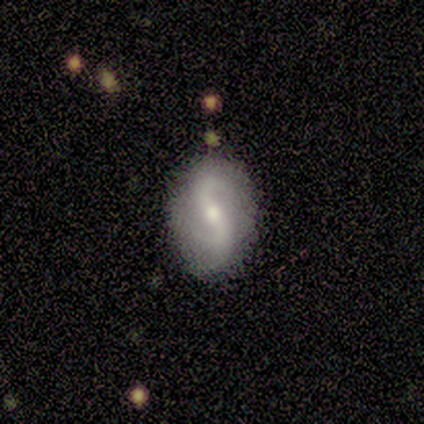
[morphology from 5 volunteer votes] A featured or disk galaxy (60%) with a strong bar (33%, tied with weak and no), 1 (33%, tied with 2 and can't tell) loose (67%) spiral arms (100%) and a small central bulge (67%). Merging: none (50%, tied with minor disturbance).